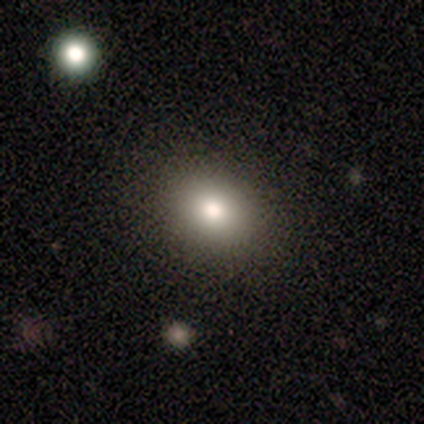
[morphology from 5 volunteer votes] Overall: smooth (80%). How rounded: round (100%). Merging: none (100%).